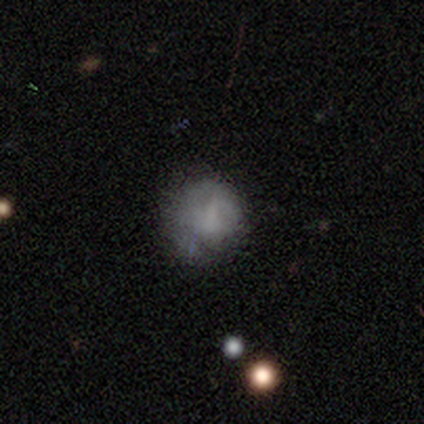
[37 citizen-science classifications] Volunteers were most divided on "smooth or featured": smooth: 51%, featured or disk: 41%, star or artifact: 8%. More confident: how rounded — round (84%); merging — none (56%).